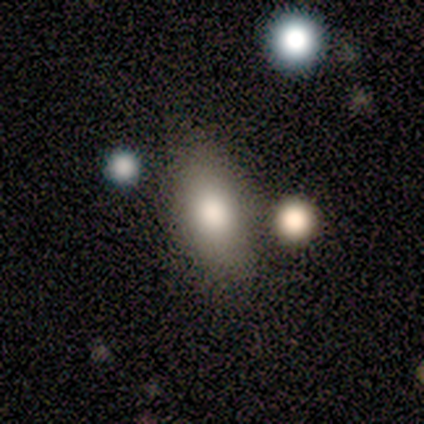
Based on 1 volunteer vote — Q: Smooth or featured?
A: featured or disk (100%)
Q: Edge-on disk?
A: no (100%)
Q: Bar?
A: no (100%)
Q: Spiral arms?
A: no (100%)
Q: Bulge size?
A: moderate (100%)
Q: Merging?
A: none (100%)